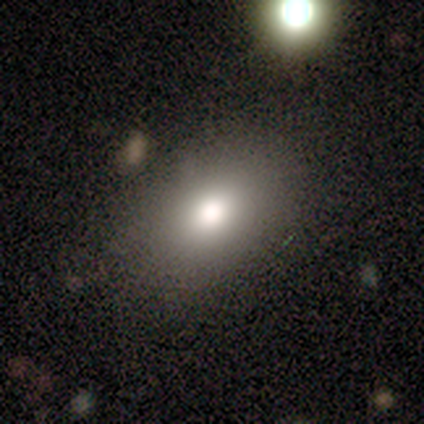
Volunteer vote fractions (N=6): smooth 50%, featured or disk 33%, star or artifact 17%. Down the decision tree: how rounded — in between (67%); merging — none (80%).